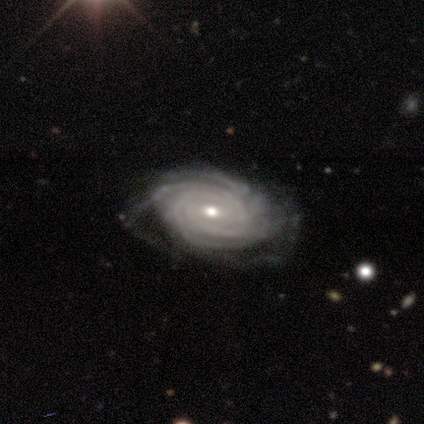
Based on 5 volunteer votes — Morphology: type=featured or disk (100%); edge-on=no (100%); bar=no (80%); spiral arms=yes (100%); winding=tight (80%); arm count=4 (60%); bulge=moderate (80%); merging=none (80%).